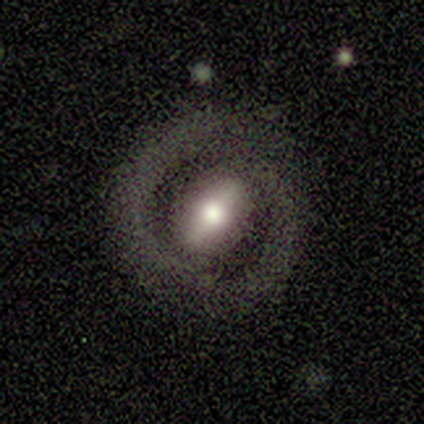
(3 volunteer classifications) This appears to be a featured or disk galaxy (100%) with a strong bar (67%), 1 (50%, tied with 2) tight (100%) spiral arms (67%) and a dominant central bulge (33%, tied with large and moderate). Merging: none (100%).